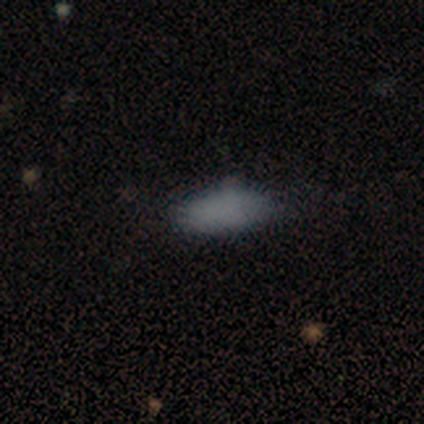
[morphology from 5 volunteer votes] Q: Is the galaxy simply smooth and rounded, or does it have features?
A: smooth — 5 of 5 (100%).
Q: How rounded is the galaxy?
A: in between — 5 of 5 (100%).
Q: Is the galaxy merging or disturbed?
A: none — 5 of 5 (100%).